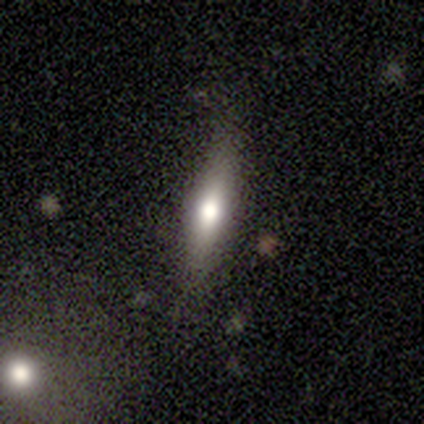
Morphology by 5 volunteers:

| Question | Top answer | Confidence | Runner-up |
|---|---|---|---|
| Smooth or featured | smooth | 100% | — |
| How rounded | cigar-shaped | 60% | in between (40%) |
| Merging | none | 100% | — |